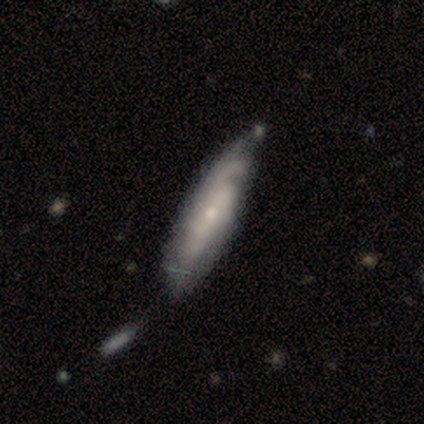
Smooth or featured?
  - featured or disk: 72% *
  - smooth: 22%
  - star or artifact: 5%
Edge-on disk?
  - no: 76% *
  - yes: 24%
Bar?
  - no: 77% *
  - weak: 23%
  - strong: 0%
Spiral arms?
  - yes: 91% *
  - no: 9%
Spiral winding?
  - tight: 50% *
  - medium: 35%
  - loose: 15%
Spiral arm count?
  - can't tell: 65% *
  - 2: 20%
  - 4: 10%
  - 3: 5%
  - 1: 0%
  - more than 4: 0%
Bulge size?
  - small: 77% *
  - moderate: 23%
  - dominant: 0%
  - large: 0%
  - none: 0%
Merging?
  - none: 34% *
  - minor disturbance: 26%
  - merger: 11%
  - major disturbance: 0%